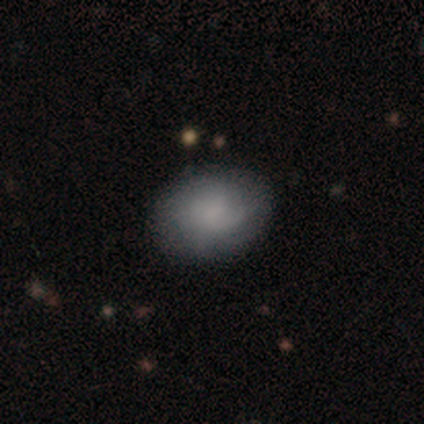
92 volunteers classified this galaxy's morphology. smooth-or-featured: smooth: 63% | featured or disk: 28% | star or artifact: 9%
  how-rounded: in between: 74% | round: 26% | cigar-shaped: 0%
  merging: none: 82% | minor disturbance: 13% | major disturbance: 4% | merger: 1%